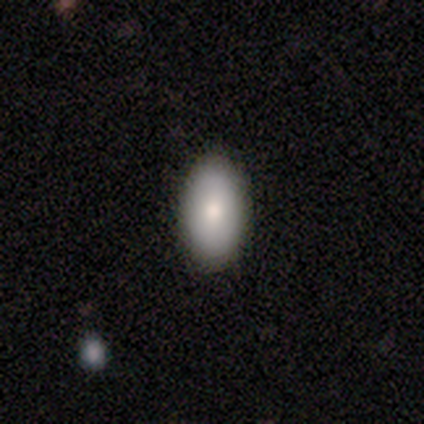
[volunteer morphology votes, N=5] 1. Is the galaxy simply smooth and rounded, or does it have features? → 60% smooth, 40% featured or disk, 0% star or artifact.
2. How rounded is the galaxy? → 100% in between, 0% round, 0% cigar-shaped.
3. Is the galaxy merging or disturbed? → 100% none, 0% minor disturbance, 0% major disturbance, 0% merger.